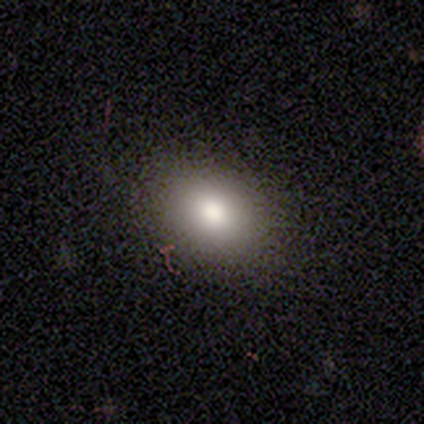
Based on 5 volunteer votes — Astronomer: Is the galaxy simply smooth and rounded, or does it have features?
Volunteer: smooth — 80%.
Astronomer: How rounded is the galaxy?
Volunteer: in between — 100%.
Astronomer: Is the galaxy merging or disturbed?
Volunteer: none — 100%.